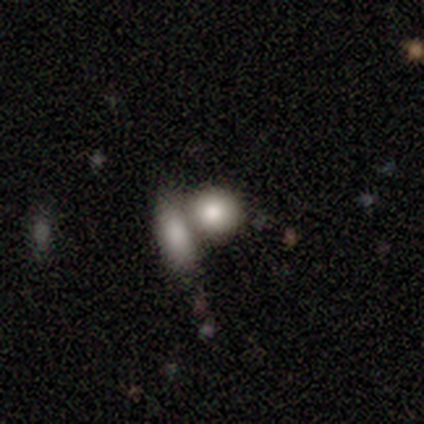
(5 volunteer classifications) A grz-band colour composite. It shows a smooth galaxy with no disk features (80%) that is round (50%, tied with in between). Merging: merger (100%).